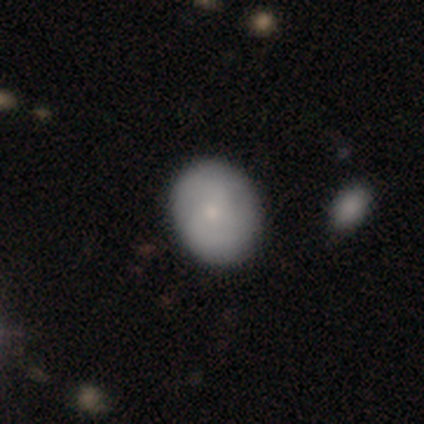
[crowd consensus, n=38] A smooth galaxy with no disk features (66%) that is round (60%). Merging: none (86%).